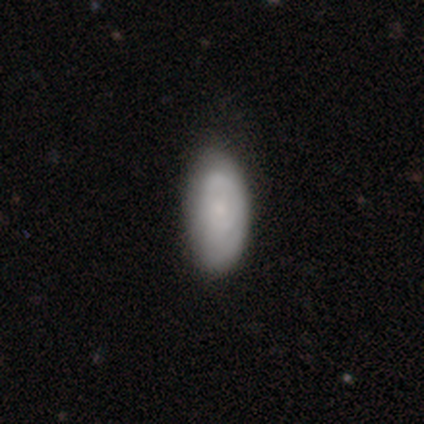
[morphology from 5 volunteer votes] Smooth or featured? 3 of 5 (60%) said smooth. How rounded? 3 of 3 (100%) said in between. Merging? 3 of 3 (100%) said none.